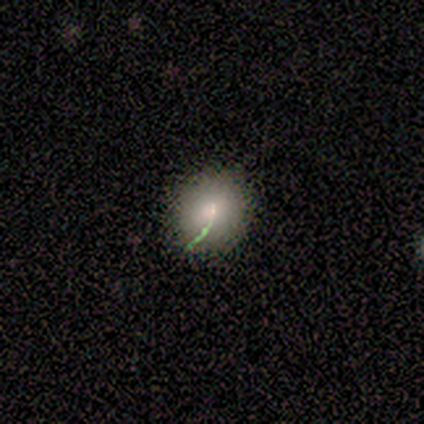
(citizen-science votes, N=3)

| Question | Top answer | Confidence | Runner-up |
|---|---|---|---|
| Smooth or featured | smooth | 100% | — |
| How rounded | round | 100% | — |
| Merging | none | 100% | — |